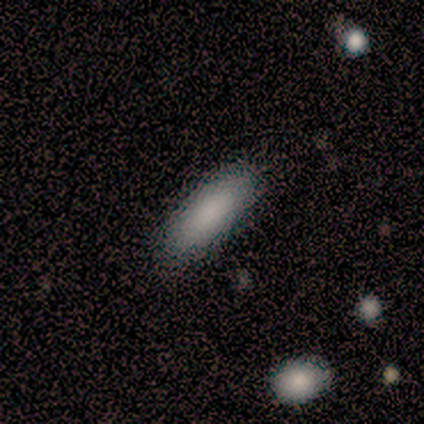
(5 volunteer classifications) Overall: smooth (80%). How rounded: in between (50%, tied with cigar-shaped). Merging: none (80%).